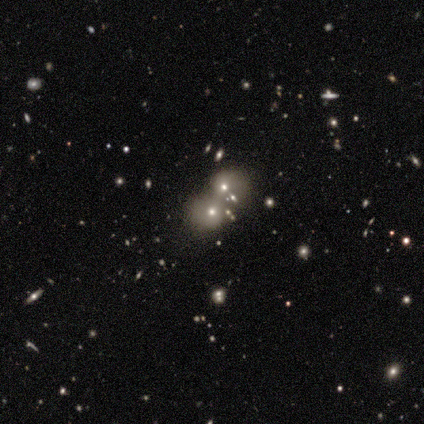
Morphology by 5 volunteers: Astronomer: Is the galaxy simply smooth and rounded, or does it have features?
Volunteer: smooth — 60% (runner-up: star or artifact, 40%).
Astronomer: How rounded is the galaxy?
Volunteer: round — 100%.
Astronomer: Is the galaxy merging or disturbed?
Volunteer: none — 33%, tied with minor disturbance and merger at 33%.